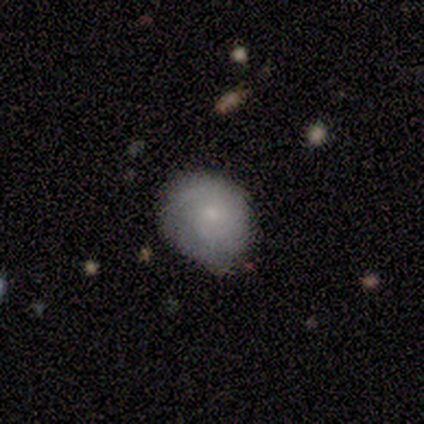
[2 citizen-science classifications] Smooth or featured?
  - smooth: 50% * (tied)
  - star or artifact: 50% * (tied)
  - featured or disk: 0%
How rounded?
  - round: 100% *
  - in between: 0%
  - cigar-shaped: 0%
Merging?
  - none: 100% *
  - minor disturbance: 0%
  - major disturbance: 0%
  - merger: 0%